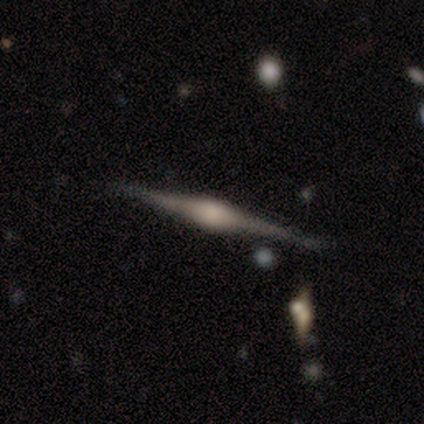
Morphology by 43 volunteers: Smooth or featured? featured or disk (91%)
Edge-on disk? yes (100%)
Edge-on bulge? rounded (90%)
Merging? none (81%)